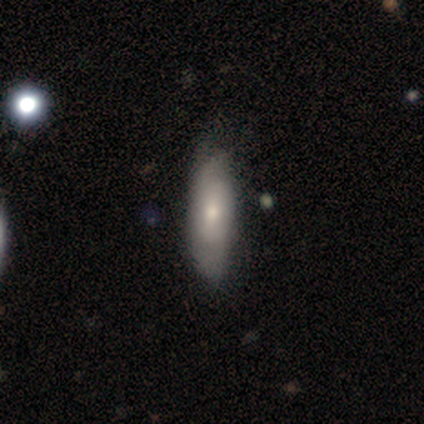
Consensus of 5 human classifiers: Smooth or featured? smooth (60%)
How rounded? in between (67%)
Merging? none (80%)